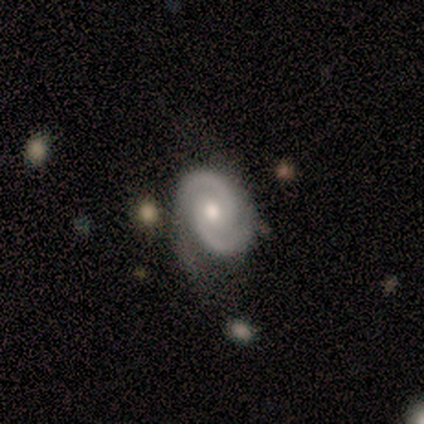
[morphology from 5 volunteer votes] smooth-or-featured: featured or disk: 80% | smooth: 20% | star or artifact: 0%
  disk-edge-on: no: 100% | yes: 0%
    bar: no: 75% | weak: 25% | strong: 0%
    has-spiral-arms: yes: 100% | no: 0%
      spiral-winding: tight: 50% (tied) | medium: 50% (tied) | loose: 0%
      spiral-arm-count: 2: 100% | 1: 0% | 3: 0% | 4: 0% | more than 4: 0% | can't tell: 0%
    bulge-size: moderate: 100% | dominant: 0% | large: 0% | small: 0% | none: 0%
  merging: minor disturbance: 80% | none: 20% | major disturbance: 0% | merger: 0%